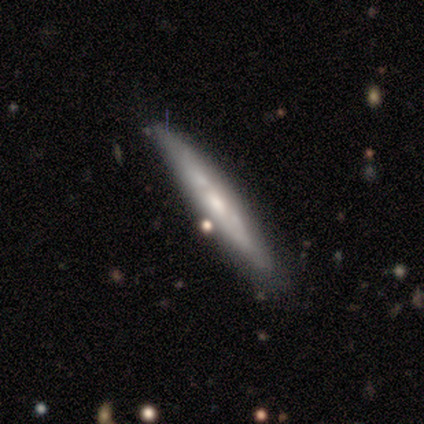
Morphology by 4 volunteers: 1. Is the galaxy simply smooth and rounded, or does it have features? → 100% featured or disk, 0% smooth, 0% star or artifact.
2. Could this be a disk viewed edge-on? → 75% yes, 25% no.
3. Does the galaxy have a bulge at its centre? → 67% none, 33% boxy, 0% rounded.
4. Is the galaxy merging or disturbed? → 50% minor disturbance, 25% none, 25% merger, 0% major disturbance.